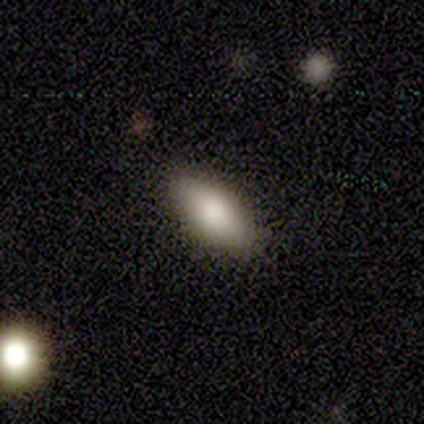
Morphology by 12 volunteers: smooth 83%, featured or disk 17%, star or artifact 0%. Down the decision tree: how rounded — in between (100%); merging — none (92%).